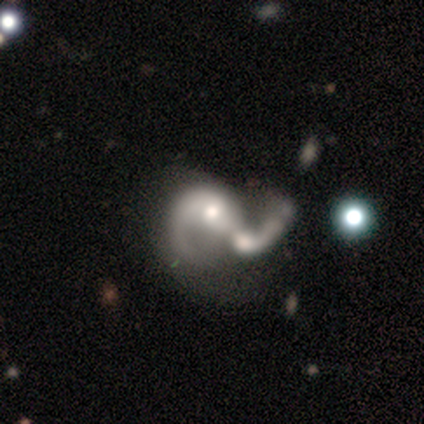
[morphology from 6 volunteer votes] A featured or disk galaxy (100%) with no bar (83%), 1 (60%) loose (80%) spiral arms (83%) and a moderate central bulge (67%). Merging: merger (50%).